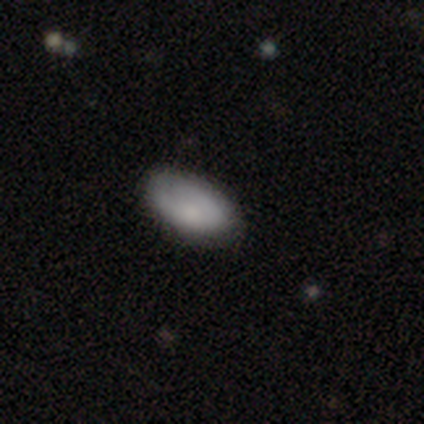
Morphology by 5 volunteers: A smooth galaxy with no disk features (100%) that is in between round and cigar-shaped (100%). Merging: none (60%).